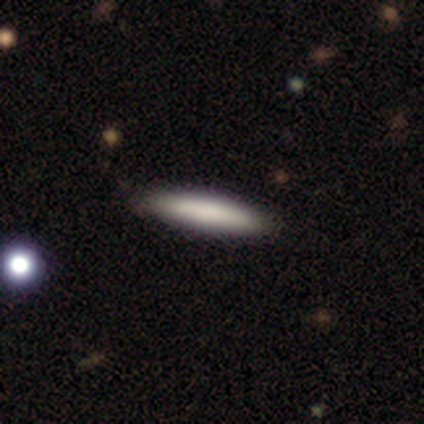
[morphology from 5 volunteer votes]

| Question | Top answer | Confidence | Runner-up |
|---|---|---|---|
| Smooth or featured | smooth | 60% | featured or disk (40%) |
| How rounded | cigar-shaped | 100% | — |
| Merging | none | 80% | minor disturbance (20%) |